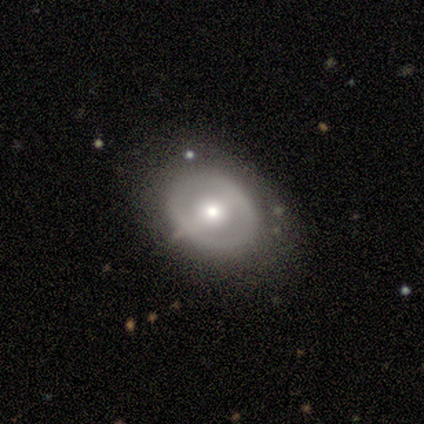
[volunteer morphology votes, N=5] Overall: smooth (60%; featured or disk 40%). How rounded: round (67%; in between 33%). Merging: none (100%).